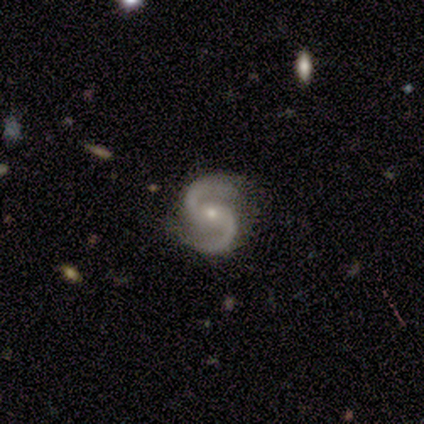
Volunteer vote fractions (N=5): Morphology: type=featured or disk (100%); edge-on=no (100%); bar=no (80%); spiral arms=yes (100%); winding=medium (60%); arm count=2 (80%); bulge=small (80%); merging=none (80%).